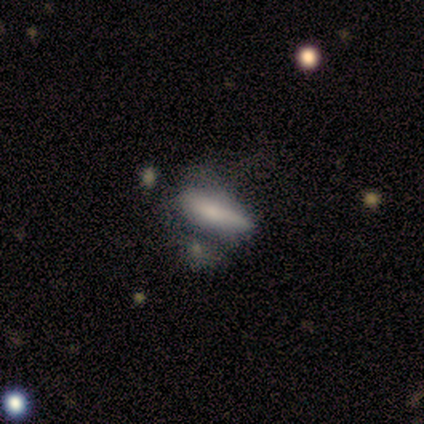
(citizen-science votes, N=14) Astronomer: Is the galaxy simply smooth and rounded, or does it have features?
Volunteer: smooth — 79%.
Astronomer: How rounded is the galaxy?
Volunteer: cigar-shaped — 64%.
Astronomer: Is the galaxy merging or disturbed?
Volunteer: none — 54%.